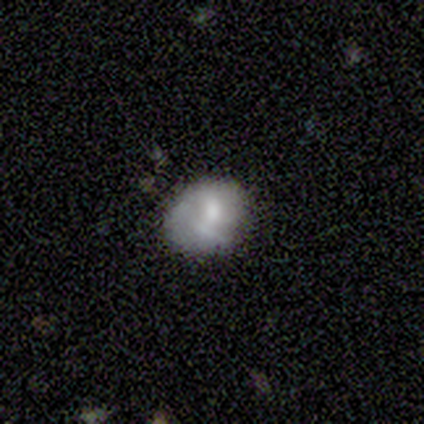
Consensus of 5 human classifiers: Smooth or featured? smooth (40%, tied with featured or disk)
How rounded? round (50%, tied with in between)
Merging? major disturbance (50%)